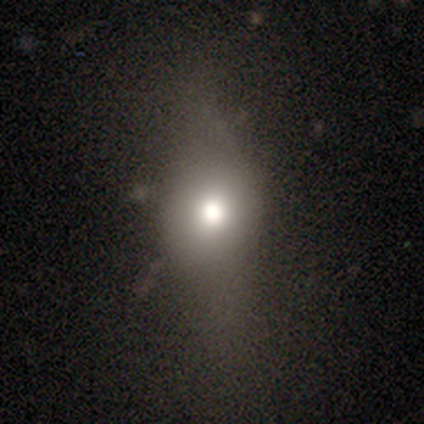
A smooth galaxy with no disk features (33%, tied with featured or disk and star or artifact) that is in between round and cigar-shaped (100%). Merging: major disturbance (100%).